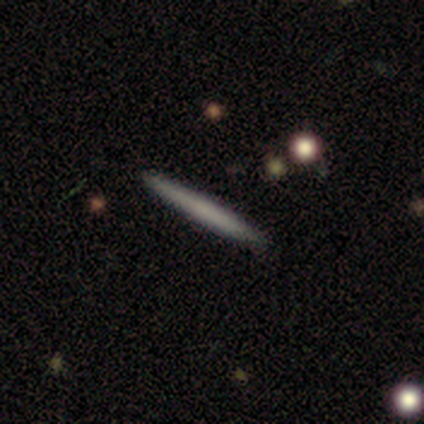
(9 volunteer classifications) A smooth galaxy with no disk features (67%) that is cigar-shaped (100%). Merging: none (100%).